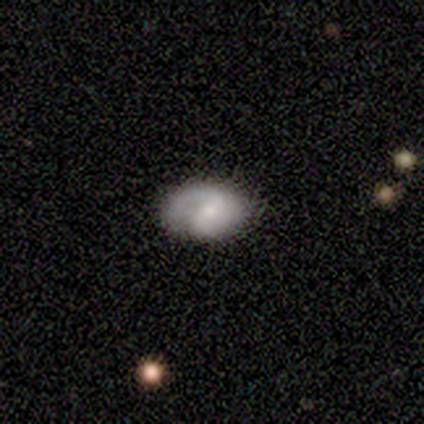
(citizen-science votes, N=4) A smooth galaxy with no disk features (100%) that is in between round and cigar-shaped (100%). Merging: none (100%).